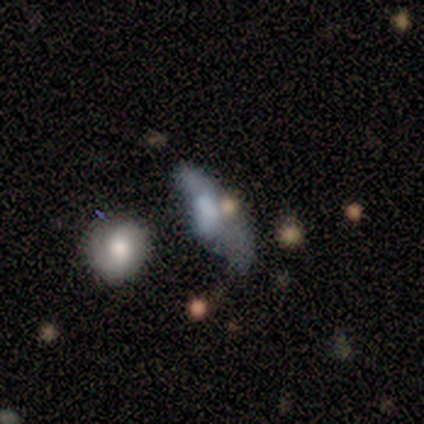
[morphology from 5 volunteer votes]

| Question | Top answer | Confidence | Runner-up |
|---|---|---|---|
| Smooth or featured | smooth | 60% | featured or disk (20%) |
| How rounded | in between | 100% | — |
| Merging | minor disturbance | 75% | major disturbance (25%) |